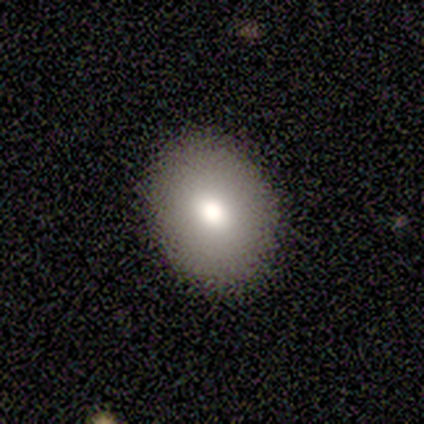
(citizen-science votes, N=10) This appears to be a smooth galaxy with no disk features (90%) that is in between round and cigar-shaped (67%). Merging: none (100%).